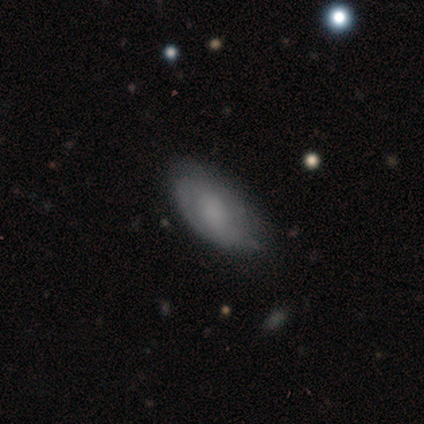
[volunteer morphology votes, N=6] smooth 100%, featured or disk 0%, star or artifact 0%. Down the decision tree: how rounded — in between (100%); merging — none (50%, tied with minor disturbance).